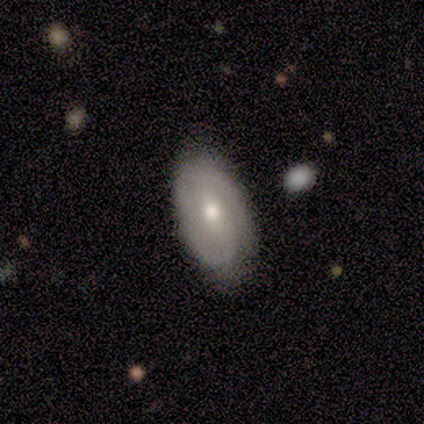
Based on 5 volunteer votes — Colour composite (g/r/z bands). It shows a featured or disk galaxy (80%) with a weak bar (50%), 2 (100%) medium (50%) spiral arms (100%) and a moderate central bulge (50%). Merging: none (75%).